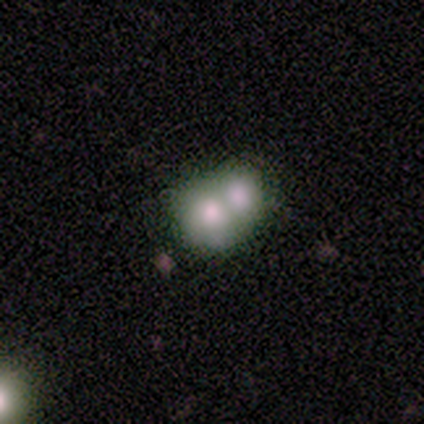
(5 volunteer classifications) Morphology: type=featured or disk (60%); edge-on=no (100%); bar=no (100%); spiral arms=no (100%); bulge=moderate (67%); merging=merger (60%).